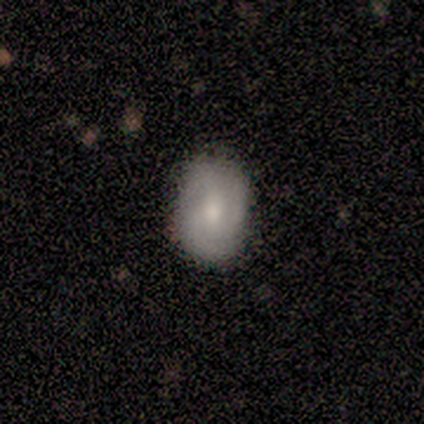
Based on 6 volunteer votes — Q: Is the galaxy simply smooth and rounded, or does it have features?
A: smooth — 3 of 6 (50%, tied with featured or disk).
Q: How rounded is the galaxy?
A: in between — 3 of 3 (100%).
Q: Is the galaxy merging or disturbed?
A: none — 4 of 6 (67%).